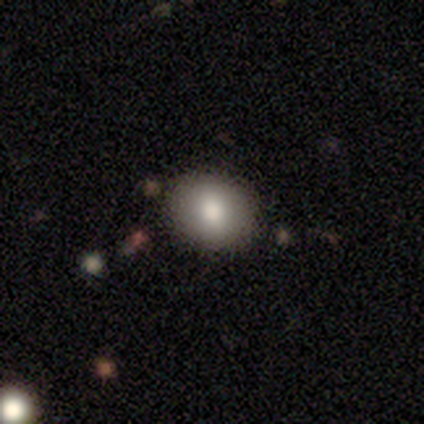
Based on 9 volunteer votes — Morphology: type=smooth (89%); roundness=round (50%, tied with in between); merging=none (78%).